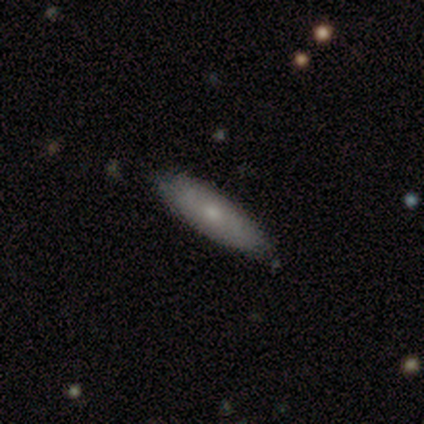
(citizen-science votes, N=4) Smooth or featured? 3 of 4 (75%) said smooth. How rounded? 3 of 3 (100%) said cigar-shaped. Merging? 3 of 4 (75%) said none.